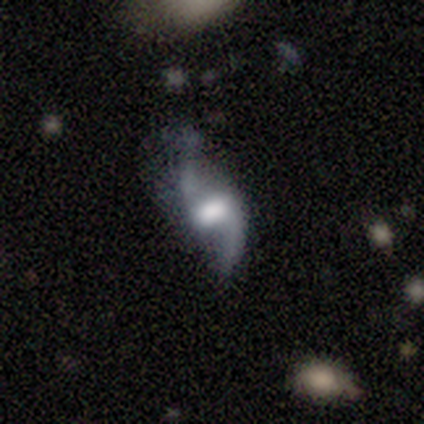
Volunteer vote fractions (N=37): smooth_or_featured: featured or disk (p=0.92) [alt: smooth p=0.05]
disk_edge_on: no (p=0.94) [alt: yes p=0.06]
bar: weak (p=0.69) [alt: strong p=0.25]
has_spiral_arms: yes (p=0.94) [alt: no p=0.06]
spiral_winding: loose (p=0.87) [alt: medium p=0.13]
spiral_arm_count: 2 (p=0.93) [alt: 1 p=0.03]
bulge_size: moderate (p=0.34) [alt: large p=0.31]
merging: none (p=0.39) [alt: minor disturbance p=0.36]